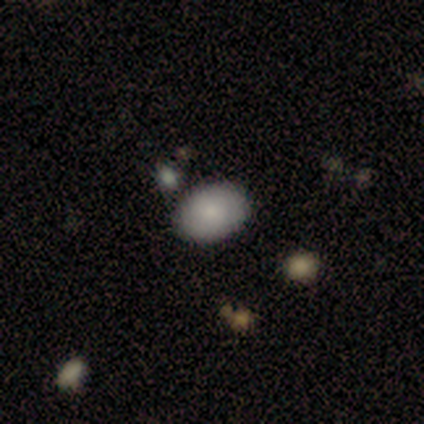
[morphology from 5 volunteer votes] This appears to be a smooth galaxy with no disk features (60%) that is in between round and cigar-shaped (100%). Merging: none (100%).